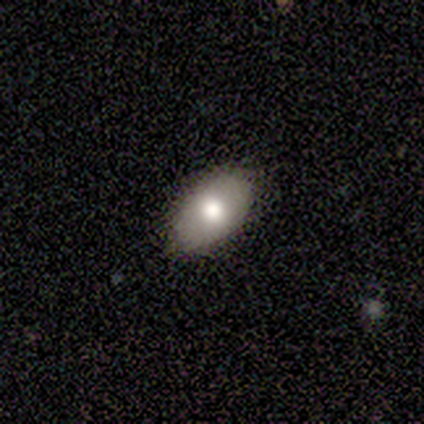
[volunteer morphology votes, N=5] Smooth or featured?
  - smooth: 60% *
  - featured or disk: 40%
  - star or artifact: 0%
How rounded?
  - in between: 100% *
  - round: 0%
  - cigar-shaped: 0%
Merging?
  - none: 60% *
  - minor disturbance: 40%
  - major disturbance: 0%
  - merger: 0%